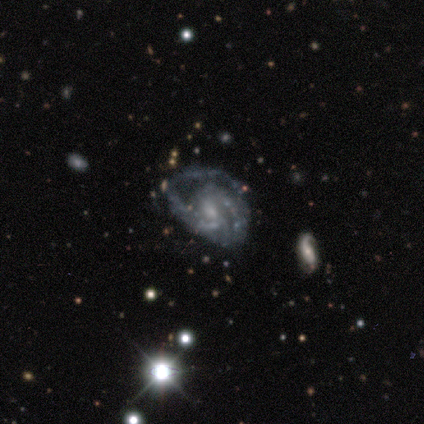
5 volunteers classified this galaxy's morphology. This is clearly a featured or disk galaxy (100%). It is clearly not viewed edge-on (100%). Bar: likely no (60%). Spiral arm pattern: clearly yes (100%). Spiral arm count: marginally 2 (40%, tied with 3). Spiral winding: likely medium (60%). Central bulge: likely small (60%). Merging: likely major disturbance (60%).